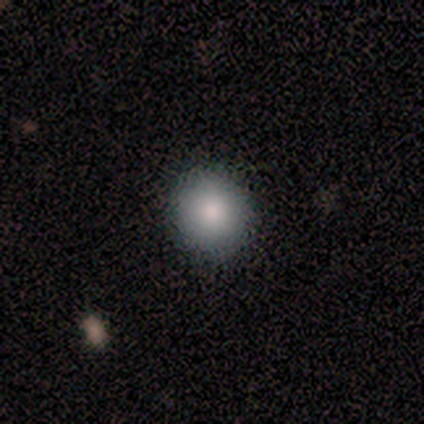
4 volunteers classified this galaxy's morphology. Volunteers were most divided on "how rounded": round: 75%, in between: 25%, cigar-shaped: 0%. More confident: smooth or featured — smooth (100%); merging — none (100%).